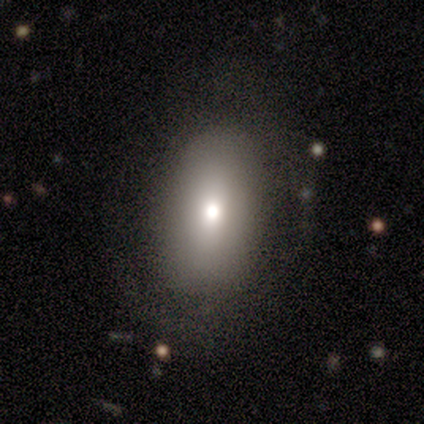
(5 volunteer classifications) Overall: smooth (100%). How rounded: in between (100%). Merging: none (80%).